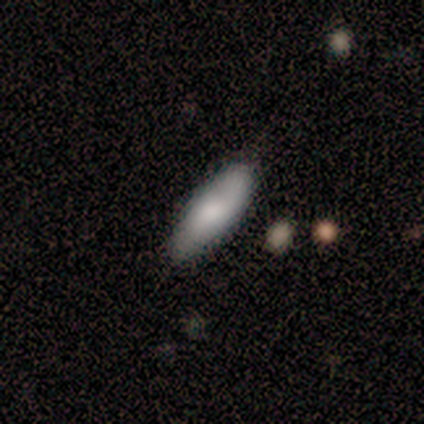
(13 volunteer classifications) A smooth galaxy with no disk features (69%) that is cigar-shaped (56%). Merging: none (82%).